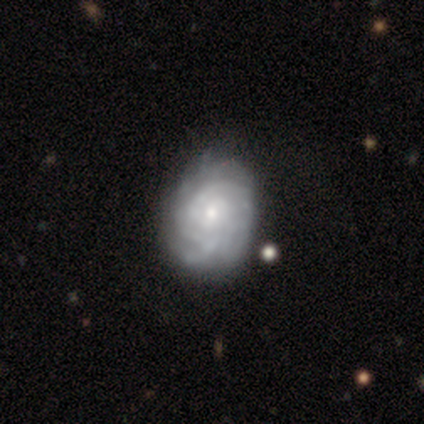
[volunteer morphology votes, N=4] Volunteers were most divided on "spiral arm count" (3-way tie): 2: 33%, more than 4: 33%, can't tell: 33%, 1: 0%, 3: 0%, 4: 0%. More confident: edge-on disk — no (100%); bar — no (100%); spiral arms — yes (100%); spiral winding — tight (100%); bulge size — small (100%); merging — none (100%); smooth or featured — featured or disk (75%).